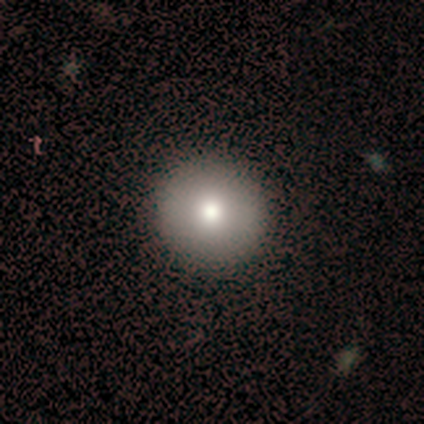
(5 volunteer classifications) Overall: smooth (80%). How rounded: round (100%). Merging: none (100%).